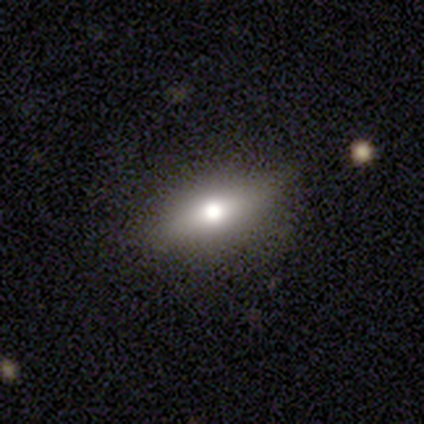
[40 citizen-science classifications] A smooth galaxy with no disk features (55%) that is in between round and cigar-shaped (50%, tied with cigar-shaped).

Vote fractions:
- Smooth or featured? smooth: 55% / featured or disk: 32% / star or artifact: 12%
- How rounded? in between: 50% (tied) / cigar-shaped: 50% (tied) / round: 0%
- Merging? none: 86% / minor disturbance: 11% / major disturbance: 3% / merger: 0%